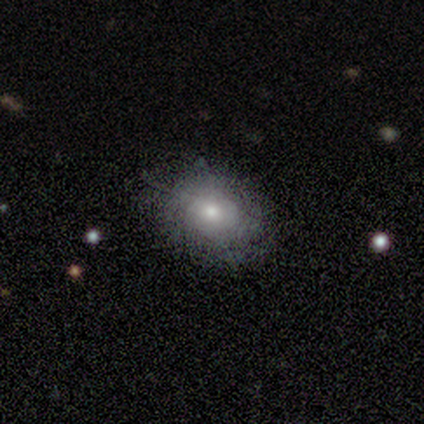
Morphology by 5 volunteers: featured or disk 60%, smooth 40%, star or artifact 0%. Down the decision tree: edge-on disk — no (100%); bar — no (67%); spiral arms — yes (67%); spiral arm count — 2 (50%, tied with can't tell); spiral winding — tight (50%, tied with medium); bulge size — small (67%); merging — none (80%).